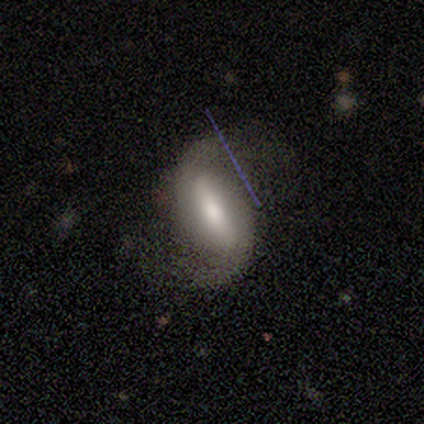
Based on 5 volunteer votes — This is clearly a featured or disk galaxy (100%). It is clearly not viewed edge-on (80%). Bar: likely strong (75%). Spiral arm pattern: clearly yes (100%). Spiral arm count: likely 2 (75%). Spiral winding: likely medium (75%). Central bulge: possibly moderate (50%). Merging: marginally none (40%, tied with minor disturbance).